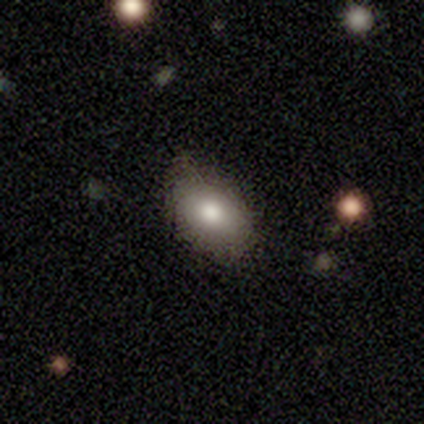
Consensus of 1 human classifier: A featured or disk galaxy (100%) with no bar (100%), no spiral arms (100%) and a moderate central bulge (100%). Merging: none (100%).